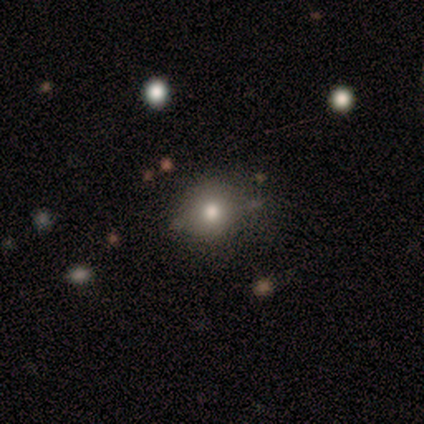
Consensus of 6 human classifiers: This is possibly a smooth galaxy (50%, tied with star or artifact). How rounded: clearly round (100%). Merging: likely none (67%).